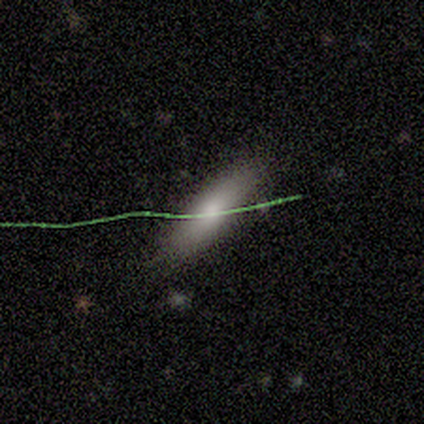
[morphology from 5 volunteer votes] This appears to be a smooth galaxy with no disk features (80%) that is in between round and cigar-shaped (50%, tied with cigar-shaped). Merging: none (80%).